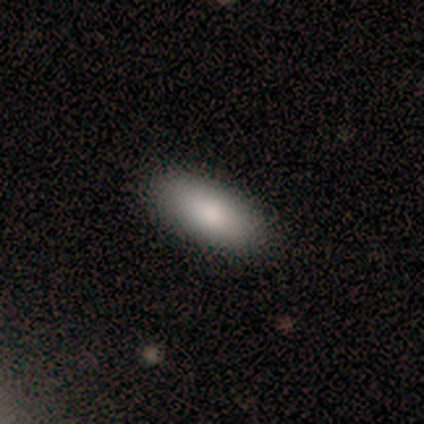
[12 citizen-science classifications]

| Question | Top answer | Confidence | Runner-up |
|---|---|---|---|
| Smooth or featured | smooth | 83% | featured or disk (8%) |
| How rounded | in between | 100% | — |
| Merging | none | 82% | minor disturbance (18%) |